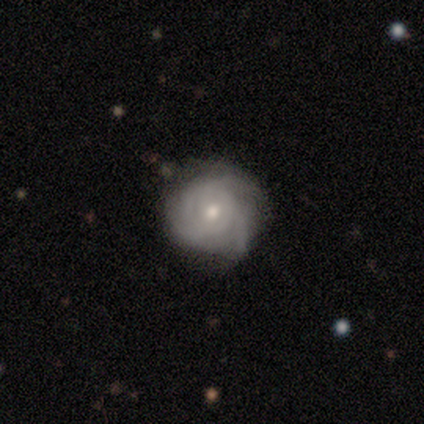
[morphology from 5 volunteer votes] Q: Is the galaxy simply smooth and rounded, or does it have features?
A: featured or disk — 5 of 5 (100%).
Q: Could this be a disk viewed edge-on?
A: no — 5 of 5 (100%).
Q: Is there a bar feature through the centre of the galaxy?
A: no — 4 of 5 (80%).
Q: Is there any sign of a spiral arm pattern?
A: yes — 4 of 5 (80%).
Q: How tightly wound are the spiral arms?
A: tight — 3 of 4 (75%).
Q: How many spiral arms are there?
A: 3 — 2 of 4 (50%).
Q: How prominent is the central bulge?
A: moderate — 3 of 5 (60%).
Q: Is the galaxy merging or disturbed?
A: none — 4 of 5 (80%).